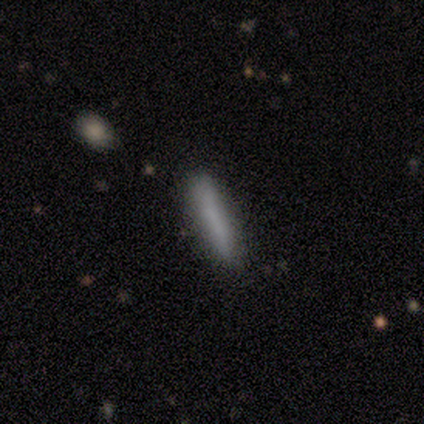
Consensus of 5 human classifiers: Smooth or featured?
  - smooth: 80% *
  - featured or disk: 20%
  - star or artifact: 0%
How rounded?
  - cigar-shaped: 75% *
  - in between: 25%
  - round: 0%
Merging?
  - none: 100% *
  - minor disturbance: 0%
  - major disturbance: 0%
  - merger: 0%